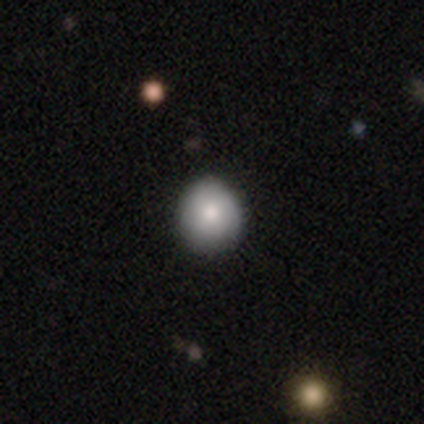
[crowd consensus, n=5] smooth 100%, featured or disk 0%, star or artifact 0%. Down the decision tree: how rounded — round (100%); merging — none (100%).